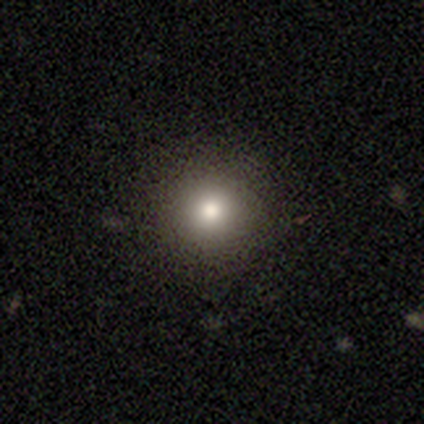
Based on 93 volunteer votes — Smooth or featured?
  - smooth: 67% *
  - star or artifact: 19%
  - featured or disk: 14%
How rounded?
  - round: 97% *
  - in between: 2%
  - cigar-shaped: 2%
Merging?
  - none: 91% *
  - minor disturbance: 5%
  - major disturbance: 3%
  - merger: 1%